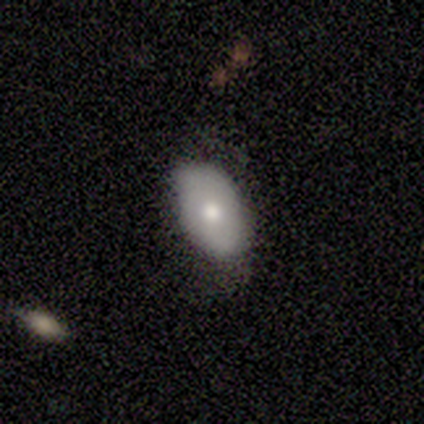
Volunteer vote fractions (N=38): Smooth or featured? smooth (66%)
How rounded? in between (96%)
Merging? none (50%)